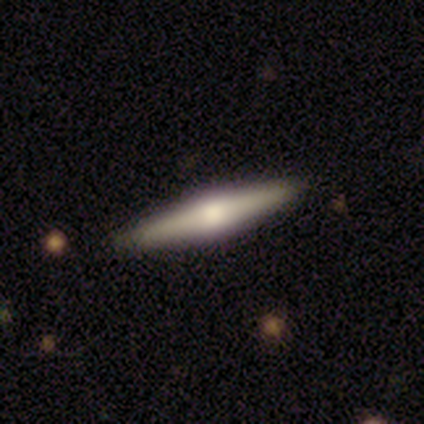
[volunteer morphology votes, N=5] Overall: featured or disk (80%). Edge-on disk: yes (100%). Edge-on bulge: rounded (100%). Merging: none (80%).